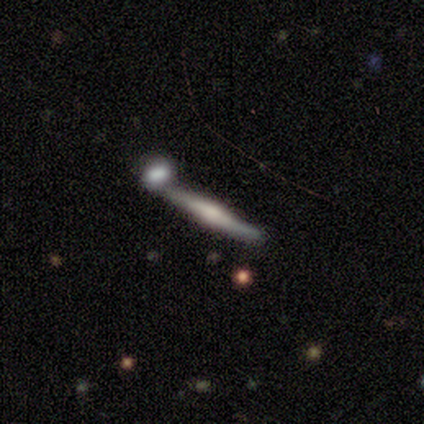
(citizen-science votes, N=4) A featured or disk galaxy (75%) viewed edge-on (100%) with a rounded central bulge (67%).

Vote fractions:
- Smooth or featured? featured or disk: 75% / smooth: 25% / star or artifact: 0%
- Edge-on disk? yes: 100% / no: 0%
- Edge-on bulge? rounded: 67% / none: 33% / boxy: 0%
- Merging? merger: 50% / none: 25% / minor disturbance: 25% / major disturbance: 0%